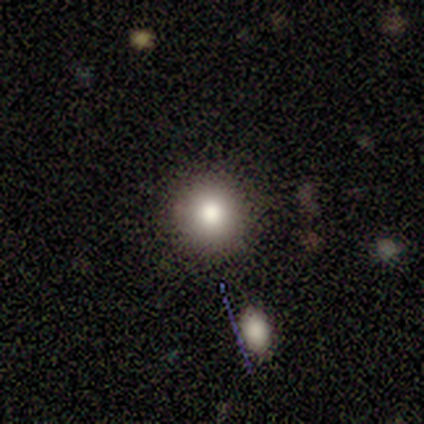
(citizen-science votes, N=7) Volunteers were most divided on "smooth or featured": smooth: 71%, star or artifact: 29%, featured or disk: 0%. More confident: how rounded — round (100%); merging — none (100%).